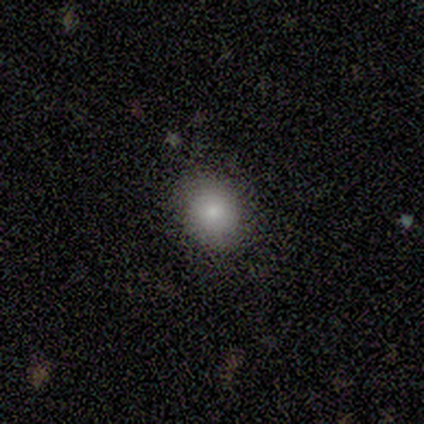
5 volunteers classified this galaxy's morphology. Smooth or featured? smooth (60%)
How rounded? round (67%)
Merging? none (50%, tied with minor disturbance)